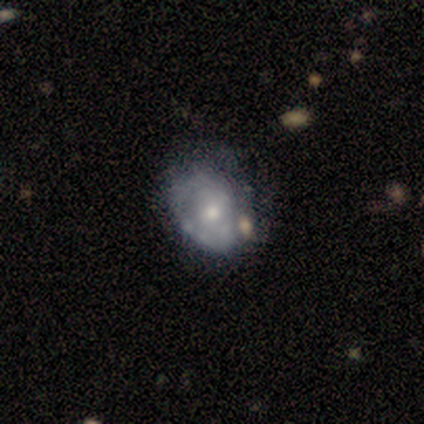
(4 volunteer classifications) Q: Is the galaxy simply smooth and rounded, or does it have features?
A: featured or disk — 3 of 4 (75%).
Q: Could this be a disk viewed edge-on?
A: no — 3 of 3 (100%).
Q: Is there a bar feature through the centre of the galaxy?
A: no — 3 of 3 (100%).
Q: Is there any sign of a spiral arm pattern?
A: no — 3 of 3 (100%).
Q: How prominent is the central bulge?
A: moderate — 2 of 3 (67%).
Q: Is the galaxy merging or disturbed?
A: minor disturbance — 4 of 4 (100%).